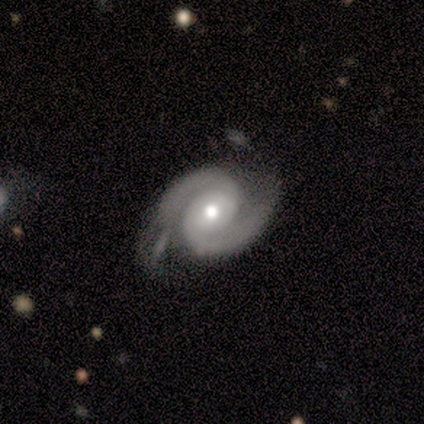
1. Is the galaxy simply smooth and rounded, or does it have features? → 88% featured or disk, 12% smooth, 0% star or artifact.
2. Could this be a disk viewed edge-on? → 100% no, 0% yes.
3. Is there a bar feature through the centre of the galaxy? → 57% no, 43% weak, 0% strong.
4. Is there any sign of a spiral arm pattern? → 100% yes, 0% no.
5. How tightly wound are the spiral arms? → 43% tight (tied), 43% medium (tied), 14% loose.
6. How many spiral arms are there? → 100% 2, 0% 1, 0% 3, 0% 4, 0% more than 4, 0% can't tell.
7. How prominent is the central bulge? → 57% small, 43% moderate, 0% dominant, 0% large, 0% none.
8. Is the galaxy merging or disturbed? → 62% none, 38% minor disturbance, 0% major disturbance, 0% merger.